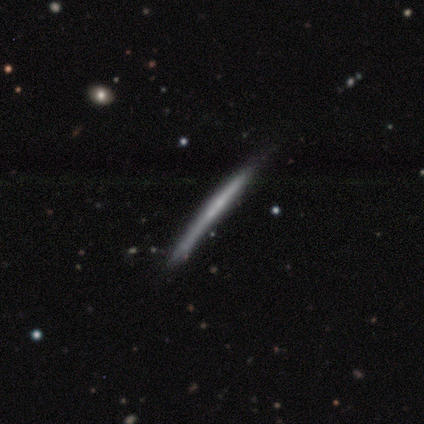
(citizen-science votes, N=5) smooth_or_featured: featured or disk (p=1.00)
disk_edge_on: yes (p=1.00)
edge_on_bulge: none (p=0.60) [alt: boxy p=0.20]
merging: none (p=0.40) [tied with: minor disturbance p=0.40]